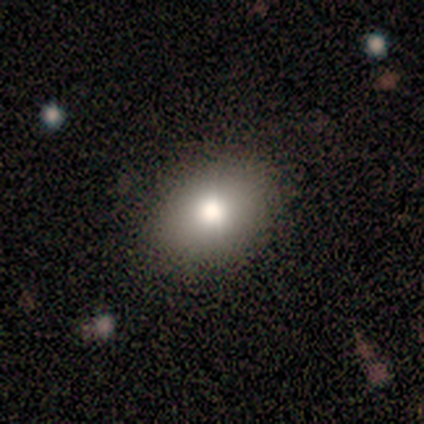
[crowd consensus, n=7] Morphology: type=smooth (100%); roundness=in between (71%); merging=none (71%).